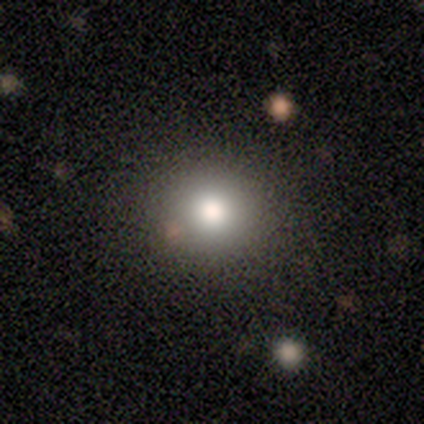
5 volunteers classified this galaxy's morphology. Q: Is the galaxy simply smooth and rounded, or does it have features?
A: smooth — 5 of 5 (100%).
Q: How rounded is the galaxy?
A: round — 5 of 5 (100%).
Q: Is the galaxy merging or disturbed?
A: none — 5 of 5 (100%).